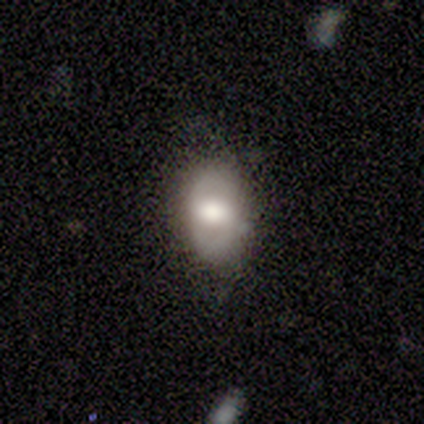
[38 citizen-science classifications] smooth_or_featured: smooth (p=0.71) [alt: featured or disk p=0.26]
how_rounded: in between (p=0.85) [alt: round p=0.11]
merging: none (p=0.76) [alt: minor disturbance p=0.19]